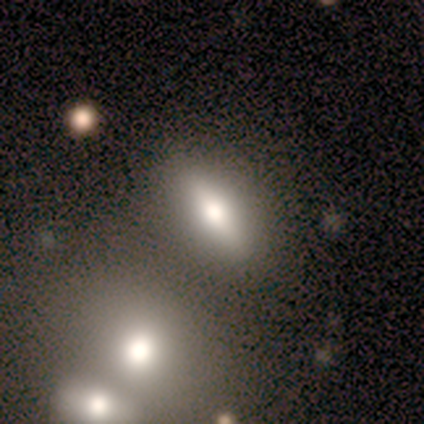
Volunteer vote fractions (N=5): Smooth or featured? smooth (60%)
How rounded? cigar-shaped (67%)
Merging? none (100%)